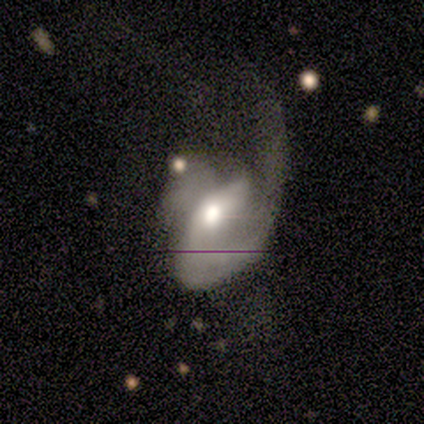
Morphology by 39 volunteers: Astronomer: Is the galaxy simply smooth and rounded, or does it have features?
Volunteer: featured or disk — 79%.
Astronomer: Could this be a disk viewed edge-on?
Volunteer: no — 100%.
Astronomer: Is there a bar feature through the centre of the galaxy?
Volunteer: no — 42% (runner-up: weak, 32%).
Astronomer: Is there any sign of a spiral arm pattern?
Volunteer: yes — 90%.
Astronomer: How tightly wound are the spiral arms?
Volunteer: medium — 57% (runner-up: loose, 32%).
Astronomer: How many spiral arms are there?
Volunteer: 1 — 75%.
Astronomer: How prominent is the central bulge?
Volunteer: moderate — 77%.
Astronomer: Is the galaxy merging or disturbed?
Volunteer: major disturbance — 79%.